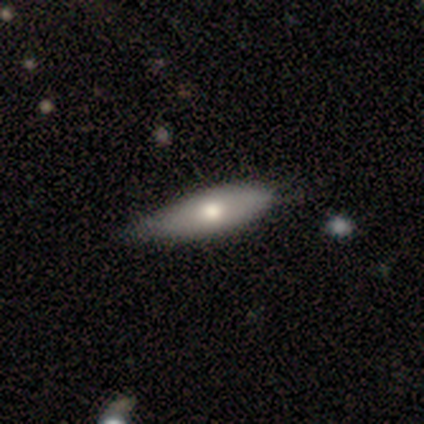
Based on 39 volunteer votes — This is likely a smooth galaxy (62%). How rounded: likely cigar-shaped (62%). Merging: possibly none (53%).